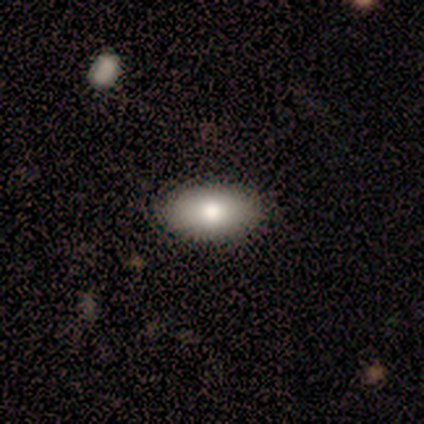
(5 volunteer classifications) This appears to be a smooth galaxy with no disk features (80%) that is in between round and cigar-shaped (100%). Merging: none (80%).